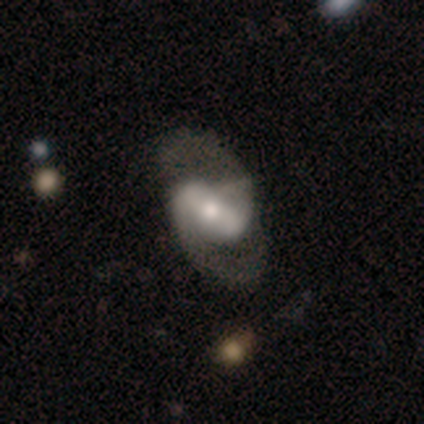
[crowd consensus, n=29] Smooth or featured: featured or disk — 72% (smooth — 17%)
Edge-on disk: no — 100%
Bar: strong — 43% (weak — 38%)
Spiral arms: yes — 90% (no — 10%)
Spiral winding: loose — 47% (medium — 42%)
Spiral arm count: 2 — 95% (can't tell — 5%)
Bulge size: moderate — 48% (small — 29%)
Merging: none — 58% (minor disturbance — 19%)